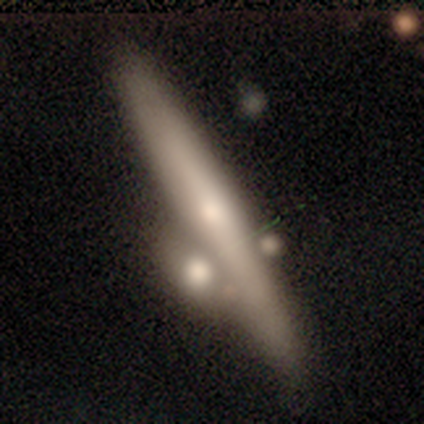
smooth-or-featured: featured or disk: 67% | smooth: 33% | star or artifact: 0%
  disk-edge-on: yes: 90% | no: 10%
    edge-on-bulge: rounded: 78% | none: 22% | boxy: 0%
  merging: none: 40% | merger: 27% | major disturbance: 20% | minor disturbance: 13%